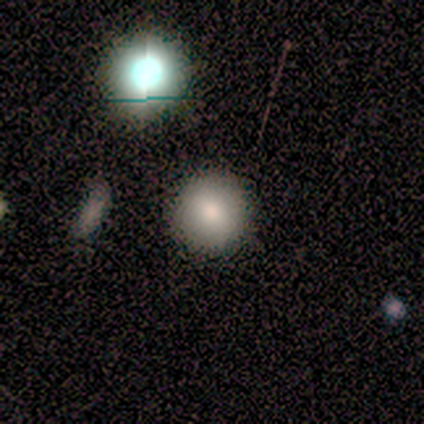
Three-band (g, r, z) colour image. It shows a smooth galaxy with no disk features (100%) that is round (100%). Merging: none (100%).